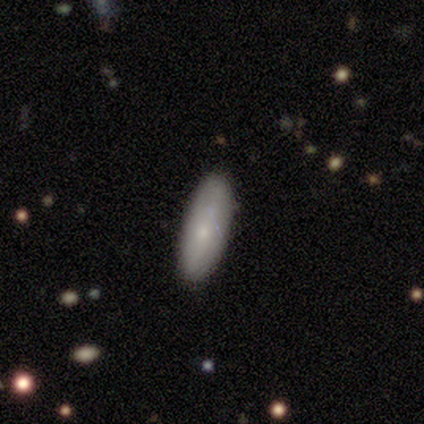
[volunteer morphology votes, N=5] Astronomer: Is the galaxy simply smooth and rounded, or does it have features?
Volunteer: smooth — 60% (runner-up: featured or disk, 40%).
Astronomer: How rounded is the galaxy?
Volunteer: cigar-shaped — 67%.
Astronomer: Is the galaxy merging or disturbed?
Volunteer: none — 60% (runner-up: minor disturbance, 40%).